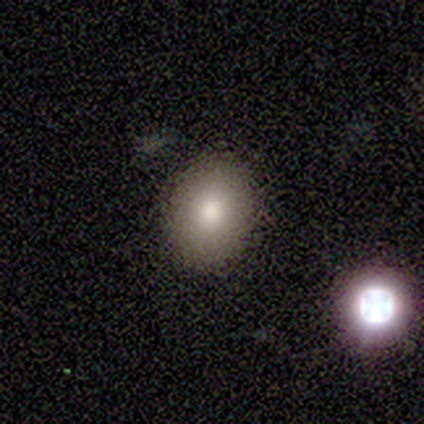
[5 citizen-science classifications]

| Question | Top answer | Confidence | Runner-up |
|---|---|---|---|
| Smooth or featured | smooth | 80% | featured or disk (20%) |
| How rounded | round | 75% | in between (25%) |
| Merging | none | 100% | — |